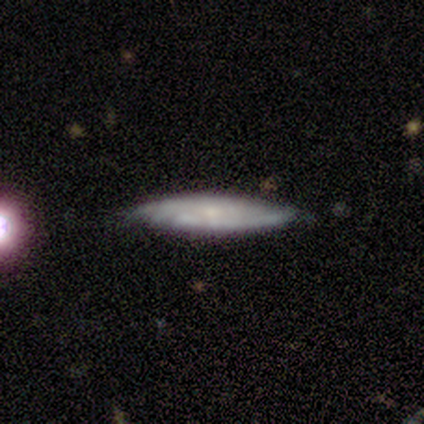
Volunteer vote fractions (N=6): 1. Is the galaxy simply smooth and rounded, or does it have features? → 67% smooth, 33% featured or disk, 0% star or artifact.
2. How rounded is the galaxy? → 100% cigar-shaped, 0% round, 0% in between.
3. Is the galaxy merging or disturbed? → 83% none, 17% minor disturbance, 0% major disturbance, 0% merger.